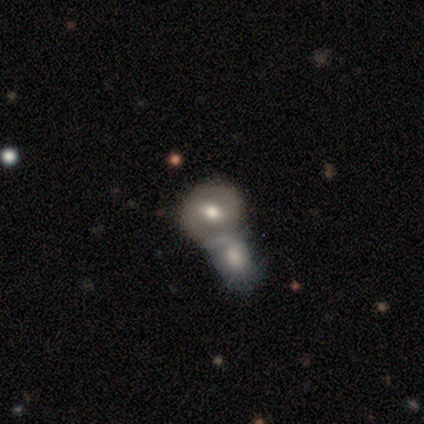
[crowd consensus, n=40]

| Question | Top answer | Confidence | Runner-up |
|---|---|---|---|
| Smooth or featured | smooth | 57% | featured or disk (42%) |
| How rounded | round | 74% | in between (22%) |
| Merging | merger | 82% | none (18%) |